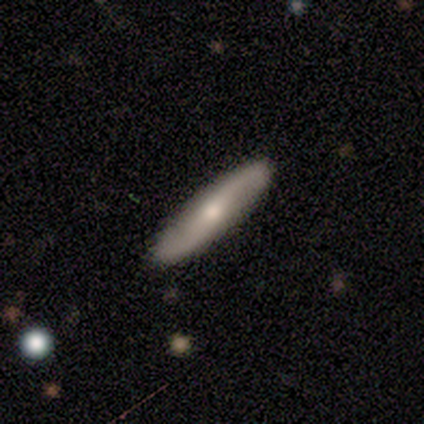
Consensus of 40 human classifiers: This appears to be a featured or disk galaxy (65%) with no bar (59%), 2 (93%) loose (87%) spiral arms (88%) and a small central bulge (53%). Merging: none (51%).